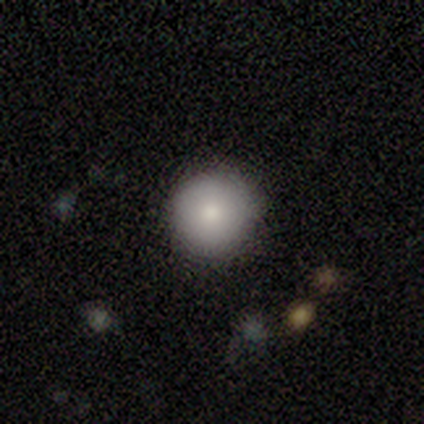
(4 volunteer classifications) smooth-or-featured: smooth: 75% | featured or disk: 25% | star or artifact: 0%
  how-rounded: round: 100% | in between: 0% | cigar-shaped: 0%
  merging: none: 100% | minor disturbance: 0% | major disturbance: 0% | merger: 0%